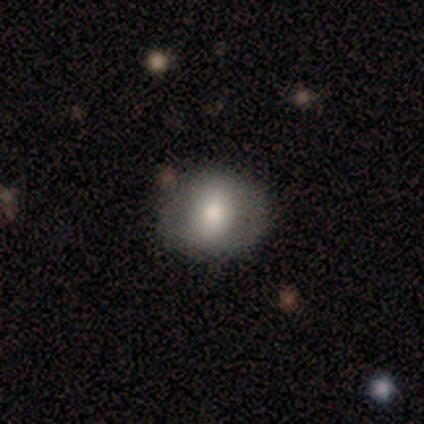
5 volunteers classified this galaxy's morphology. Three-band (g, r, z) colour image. It shows a smooth galaxy with no disk features (80%) that is round (50%, tied with in between). Merging: none (100%).